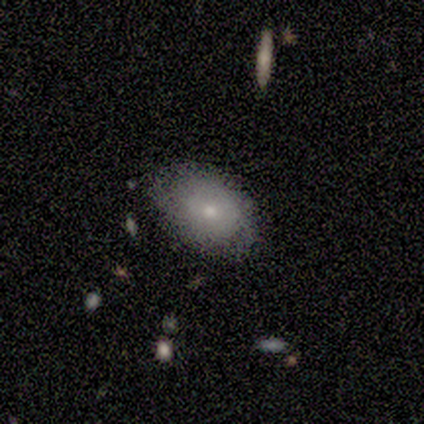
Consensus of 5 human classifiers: Smooth or featured? 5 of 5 (100%) said smooth. How rounded? 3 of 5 (60%) said in between. Merging? 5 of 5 (100%) said none.